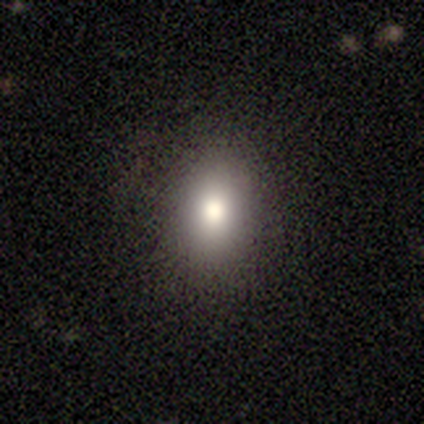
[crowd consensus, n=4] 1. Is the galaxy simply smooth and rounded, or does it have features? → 100% smooth, 0% featured or disk, 0% star or artifact.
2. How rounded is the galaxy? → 75% in between, 25% round, 0% cigar-shaped.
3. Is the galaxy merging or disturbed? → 100% none, 0% minor disturbance, 0% major disturbance, 0% merger.